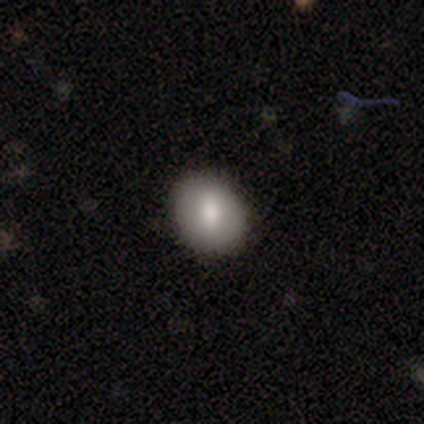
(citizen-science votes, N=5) smooth-or-featured: smooth: 100% | featured or disk: 0% | star or artifact: 0%
  how-rounded: in between: 60% | round: 40% | cigar-shaped: 0%
  merging: minor disturbance: 60% | none: 40% | major disturbance: 0% | merger: 0%